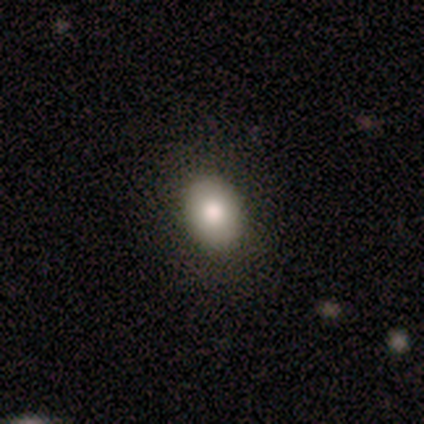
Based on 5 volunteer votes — smooth-or-featured: smooth: 80% | featured or disk: 20% | star or artifact: 0%
  how-rounded: round: 50% (tied) | in between: 50% (tied) | cigar-shaped: 0%
  merging: none: 100% | minor disturbance: 0% | major disturbance: 0% | merger: 0%